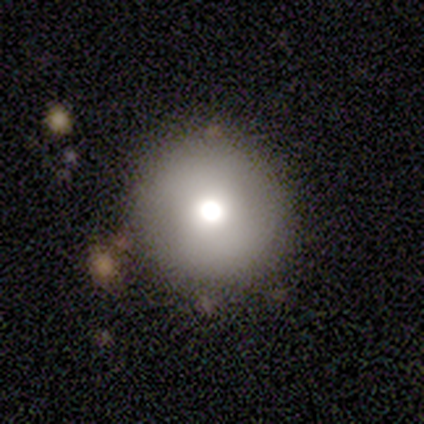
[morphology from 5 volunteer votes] A smooth galaxy with no disk features (60%) that is round (100%). Merging: none (100%).